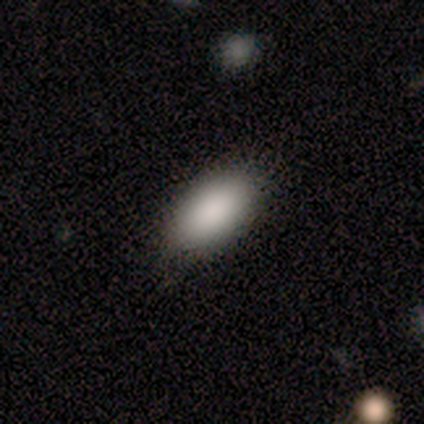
A smooth galaxy with no disk features (100%) that is in between round and cigar-shaped (100%).

Vote fractions:
- Smooth or featured? smooth: 100% / featured or disk: 0% / star or artifact: 0%
- How rounded? in between: 100% / round: 0% / cigar-shaped: 0%
- Merging? none: 80% / minor disturbance: 20% / major disturbance: 0% / merger: 0%